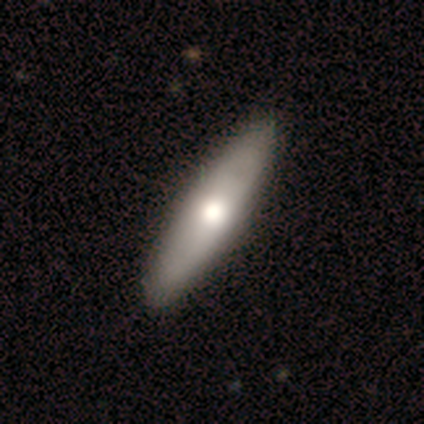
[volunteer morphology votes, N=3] Smooth or featured: featured or disk — 67% (smooth — 33%)
Edge-on disk: yes — 50% (tied with no — 50%)
Edge-on bulge: boxy — 100%
Merging: none — 67% (minor disturbance — 33%)